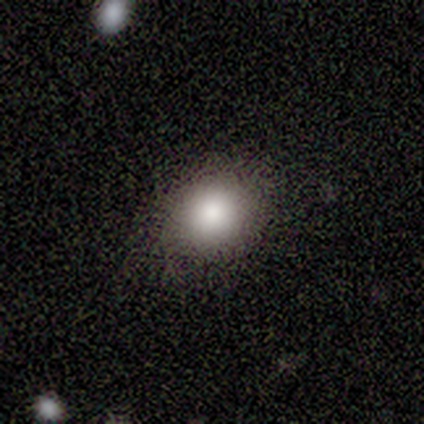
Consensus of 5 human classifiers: A smooth galaxy with no disk features (100%) that is round (60%).

Vote fractions:
- Smooth or featured? smooth: 100% / featured or disk: 0% / star or artifact: 0%
- How rounded? round: 60% / in between: 40% / cigar-shaped: 0%
- Merging? none: 60% / minor disturbance: 40% / major disturbance: 0% / merger: 0%